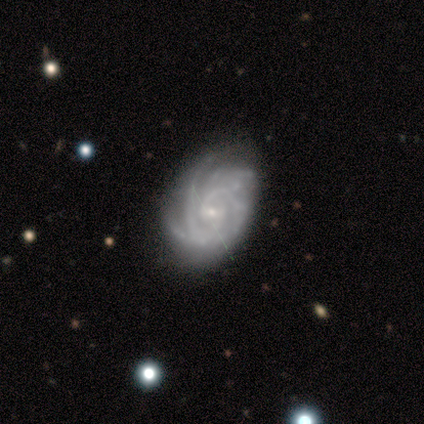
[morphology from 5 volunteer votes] Overall: featured or disk (100%). Edge-on disk: no (100%). Bar: weak (40%, tied with no). Spiral arms: yes (100%). Spiral arm count: 2 (40%; 3 20%). Spiral winding: tight (60%; medium 40%). Bulge size: small (100%). Merging: none (80%).